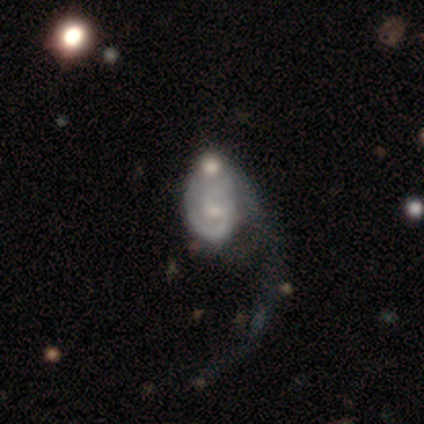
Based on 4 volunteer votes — Morphology: type=featured or disk (75%); edge-on=no (100%); bar=no (100%); spiral arms=yes (100%); winding=tight (33%, tied with medium and loose); arm count=1 (67%); bulge=moderate (33%, tied with small and none); merging=merger (50%).